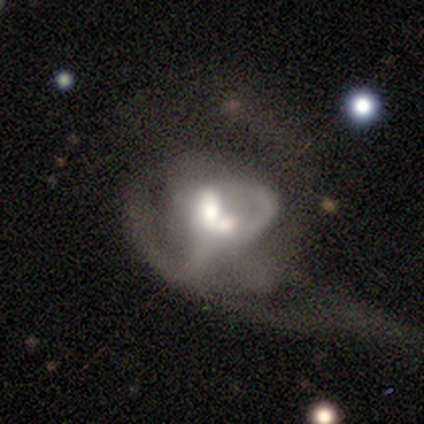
featured or disk 62%, smooth 30%, star or artifact 8%. Down the decision tree: edge-on disk — no (100%); bar — no (65%); spiral arms — yes (57%); spiral arm count — can't tell (62%); spiral winding — medium (46%, tied with loose); bulge size — moderate (65%); merging — merger (44%).